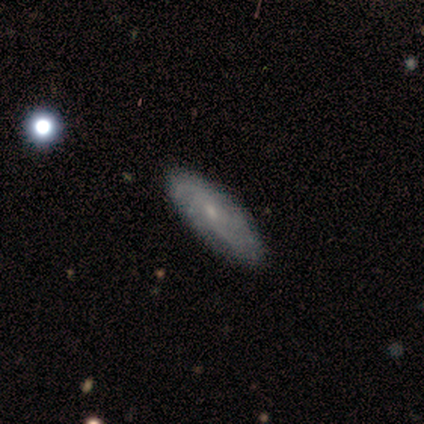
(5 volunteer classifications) smooth-or-featured: featured or disk: 80% | smooth: 20% | star or artifact: 0%
  disk-edge-on: no: 75% | yes: 25%
    bar: no: 100% | strong: 0% | weak: 0%
    has-spiral-arms: yes: 100% | no: 0%
      spiral-winding: medium: 100% | tight: 0% | loose: 0%
      spiral-arm-count: can't tell: 67% | 3: 33% | 1: 0% | 2: 0% | 4: 0% | more than 4: 0%
    bulge-size: moderate: 33% (tied) | small: 33% (tied) | none: 33% (tied) | dominant: 0% | large: 0%
  merging: none: 60% | major disturbance: 20% | merger: 20% | minor disturbance: 0%